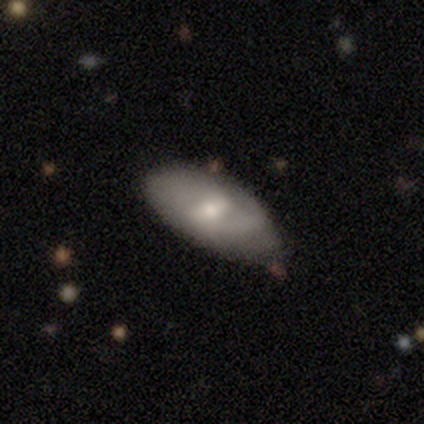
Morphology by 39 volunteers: A smooth galaxy with no disk features (46%, tied with featured or disk) that is in between round and cigar-shaped (94%). Merging: none (47%).